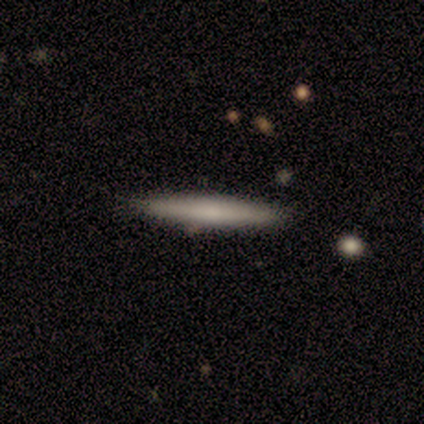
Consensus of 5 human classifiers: Smooth or featured: smooth — 80% (star or artifact — 20%)
How rounded: cigar-shaped — 100%
Merging: none — 75% (minor disturbance — 25%)